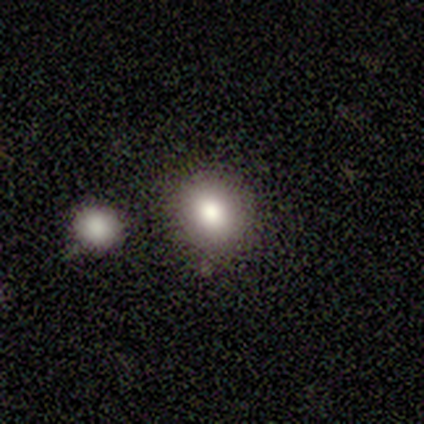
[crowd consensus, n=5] Volunteers were most divided on "smooth or featured": smooth: 60%, featured or disk: 20%, star or artifact: 20%. More confident: how rounded — round (100%); merging — none (75%).